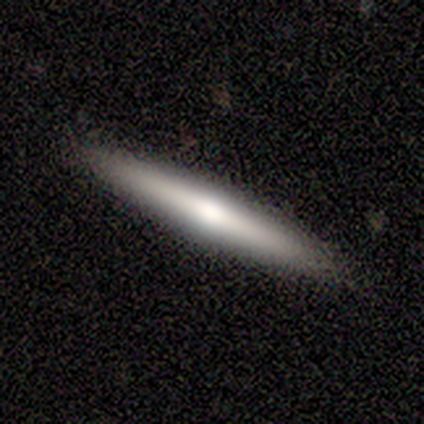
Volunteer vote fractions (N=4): smooth_or_featured: smooth (p=0.50) [tied with: featured or disk p=0.50]
how_rounded: cigar-shaped (p=1.00)
merging: none (p=1.00)